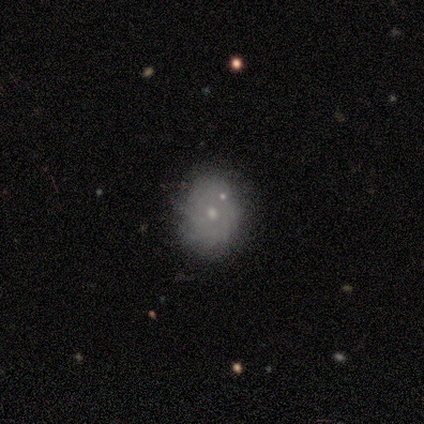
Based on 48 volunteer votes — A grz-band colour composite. It shows a featured or disk galaxy (60%) with no bar (100%), tight (93%) spiral arms (52%) and a small central bulge (72%). Merging: none (68%).